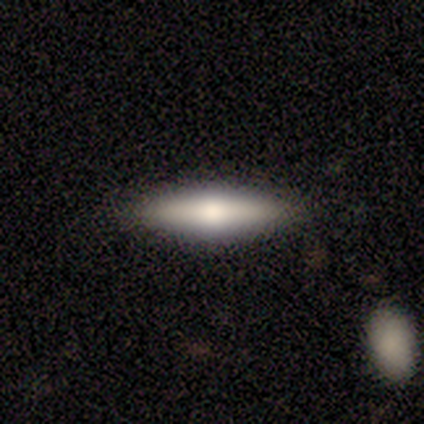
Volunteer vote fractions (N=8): This appears to be a smooth galaxy with no disk features (50%) that is cigar-shaped (100%). Merging: none (86%).